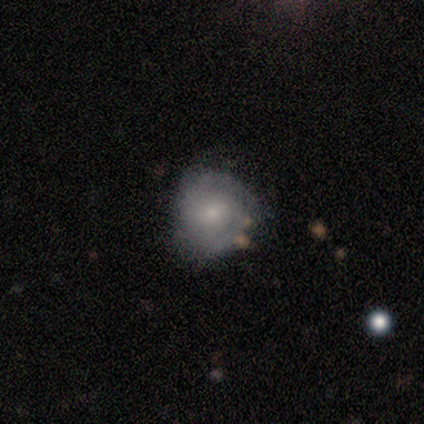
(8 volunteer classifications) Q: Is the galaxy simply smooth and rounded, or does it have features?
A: smooth — 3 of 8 (38%, tied with featured or disk).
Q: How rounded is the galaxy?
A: round — 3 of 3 (100%).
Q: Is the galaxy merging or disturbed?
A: none — 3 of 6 (50%).